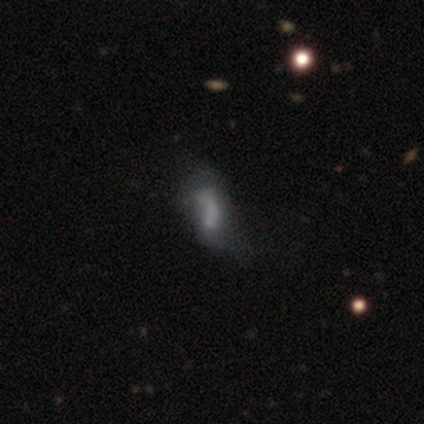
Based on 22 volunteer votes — A smooth galaxy with no disk features (41%, tied with featured or disk) that is in between round and cigar-shaped (89%).

Vote fractions:
- Smooth or featured? smooth: 41% (tied) / featured or disk: 41% (tied) / star or artifact: 18%
- How rounded? in between: 89% / cigar-shaped: 11% / round: 0%
- Merging? major disturbance: 39% / none: 28% / minor disturbance: 22% / merger: 11%